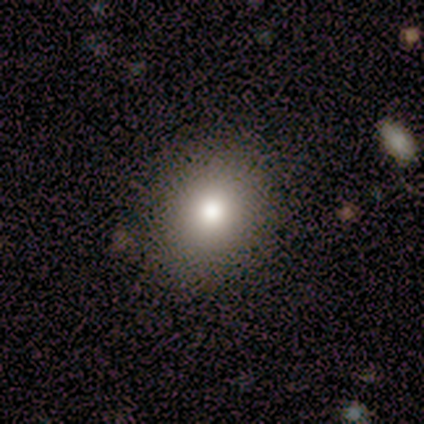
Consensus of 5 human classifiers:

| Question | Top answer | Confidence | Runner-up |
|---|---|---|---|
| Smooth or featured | smooth | 100% | — |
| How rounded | round | 60% | in between (40%) |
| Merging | none | 100% | — |